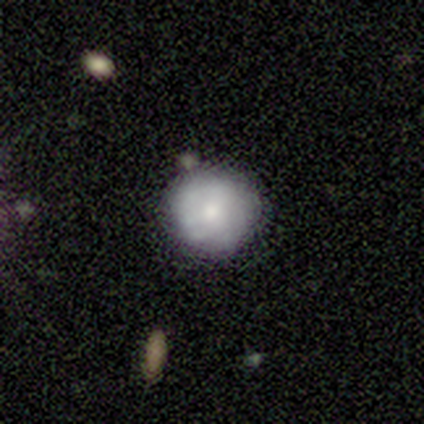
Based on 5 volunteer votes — Q: Smooth or featured?
A: smooth (80%); runner-up: featured or disk (20%)
Q: How rounded?
A: round (75%); runner-up: in between (25%)
Q: Merging?
A: none (60%); runner-up: minor disturbance (20%)